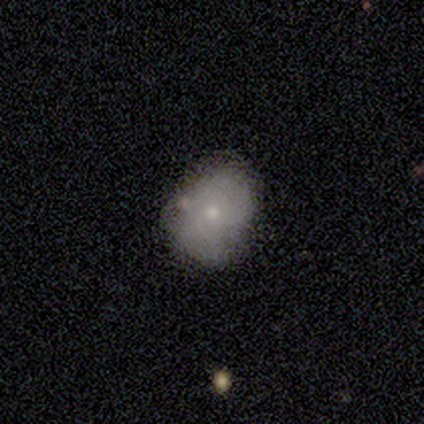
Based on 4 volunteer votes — This is likely a smooth galaxy (75%). How rounded: likely in between (67%). Merging: possibly none (50%, tied with minor disturbance).